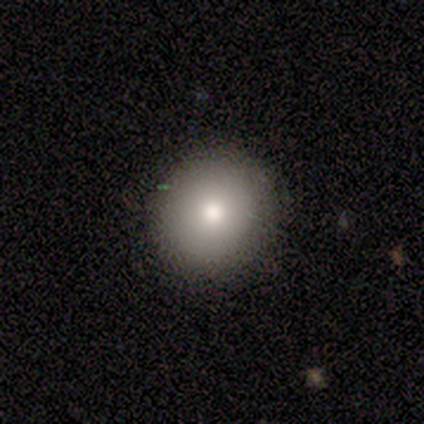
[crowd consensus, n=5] This appears to be a smooth galaxy with no disk features (80%) that is round (100%). Merging: none (75%).